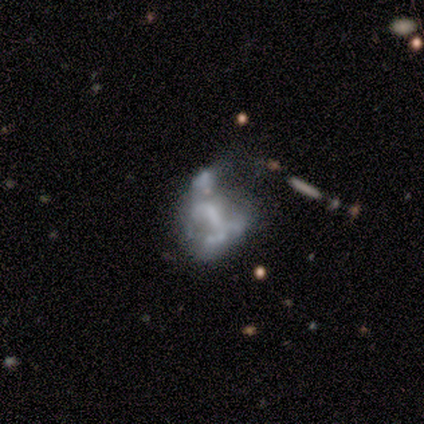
Volunteers were most divided on "smooth or featured" (2-way tie): featured or disk: 40%, star or artifact: 40%, smooth: 20%; "bulge size" (2-way tie): small: 50%, none: 50%, dominant: 0%, large: 0%, moderate: 0%. More confident: edge-on disk — no (100%); bar — no (100%); spiral arms — no (100%); merging — major disturbance (67%).